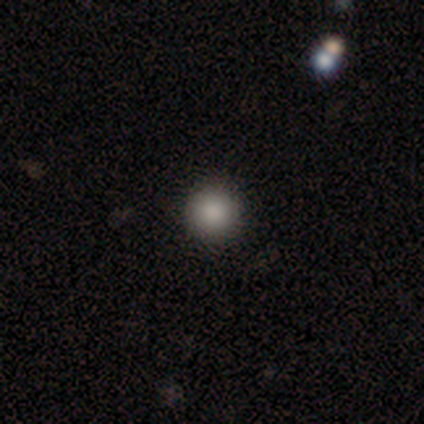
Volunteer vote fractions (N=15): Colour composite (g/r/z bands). It shows a smooth galaxy with no disk features (93%) that is round (100%). Merging: none (86%).